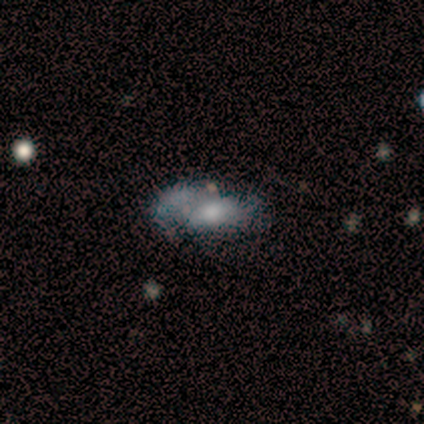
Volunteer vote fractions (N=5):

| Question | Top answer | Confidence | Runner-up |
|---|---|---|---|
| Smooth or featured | featured or disk | 80% | smooth (20%) |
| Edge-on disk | no | 100% | — |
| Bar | no | 75% | weak (25%) |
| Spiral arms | yes | 50% | tied: no (50%) |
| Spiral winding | loose | 100% | — |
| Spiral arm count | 1 | 50% | tied: can't tell (50%) |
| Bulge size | moderate | 50% | tied: small (50%) |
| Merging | none | 40% | tied: major disturbance (40%) |